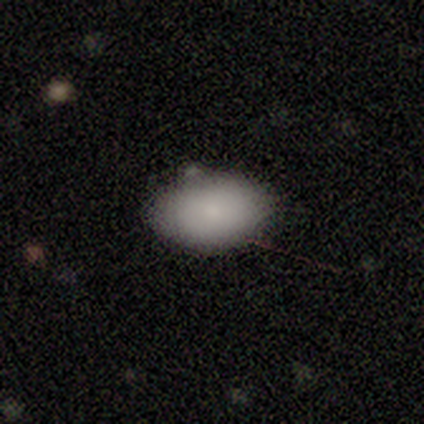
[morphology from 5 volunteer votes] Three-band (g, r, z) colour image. It shows a smooth galaxy with no disk features (100%) that is in between round and cigar-shaped (100%). Merging: none (80%).